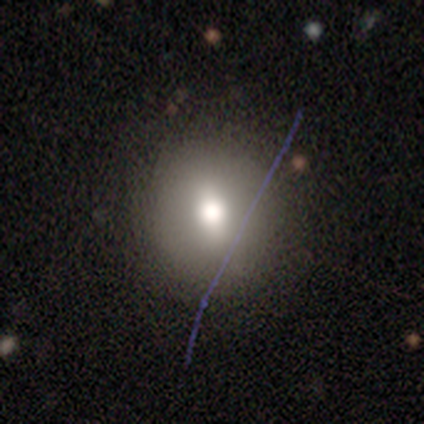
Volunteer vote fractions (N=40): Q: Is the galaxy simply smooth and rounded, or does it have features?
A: smooth — 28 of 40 (70%).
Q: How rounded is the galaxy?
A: round — 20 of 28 (71%).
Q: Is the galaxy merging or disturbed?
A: none — 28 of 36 (78%).